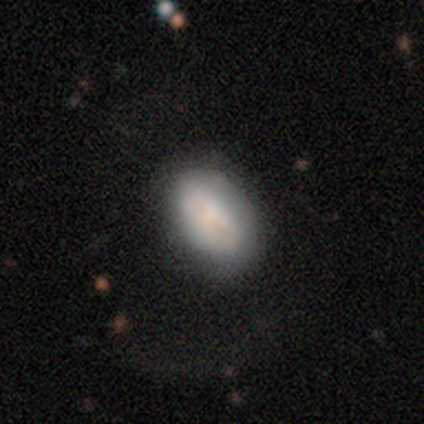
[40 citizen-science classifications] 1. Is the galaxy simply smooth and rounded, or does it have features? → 72% smooth, 25% featured or disk, 2% star or artifact.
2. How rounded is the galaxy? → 90% in between, 7% round, 3% cigar-shaped.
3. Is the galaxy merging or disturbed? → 56% none, 8% minor disturbance, 8% major disturbance, 0% merger.